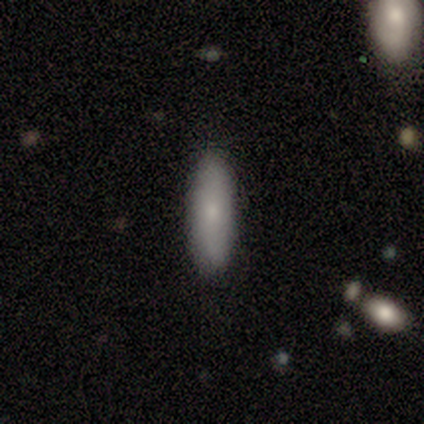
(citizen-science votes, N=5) Smooth or featured?
  - smooth: 60% *
  - featured or disk: 40%
  - star or artifact: 0%
How rounded?
  - in between: 67% *
  - cigar-shaped: 33%
  - round: 0%
Merging?
  - none: 100% *
  - minor disturbance: 0%
  - major disturbance: 0%
  - merger: 0%